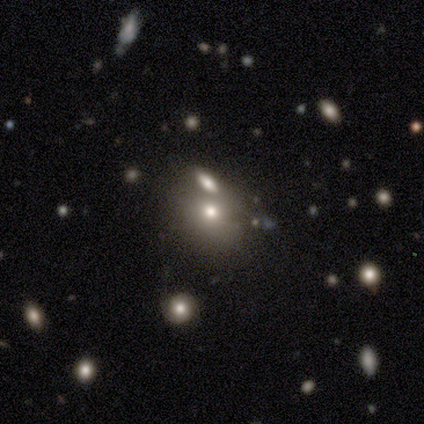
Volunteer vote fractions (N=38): Smooth or featured: smooth — 74% (star or artifact — 16%)
How rounded: round — 75% (in between — 25%)
Merging: none — 50% (merger — 41%)